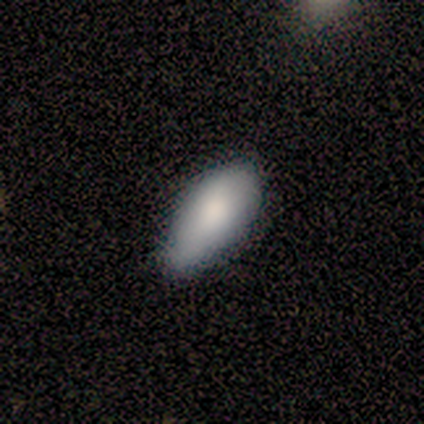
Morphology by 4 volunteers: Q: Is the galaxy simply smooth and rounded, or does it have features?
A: smooth — 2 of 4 (50%, tied with star or artifact).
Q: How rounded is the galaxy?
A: in between — 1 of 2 (50%, tied with cigar-shaped).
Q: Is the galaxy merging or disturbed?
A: none — 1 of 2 (50%, tied with minor disturbance).